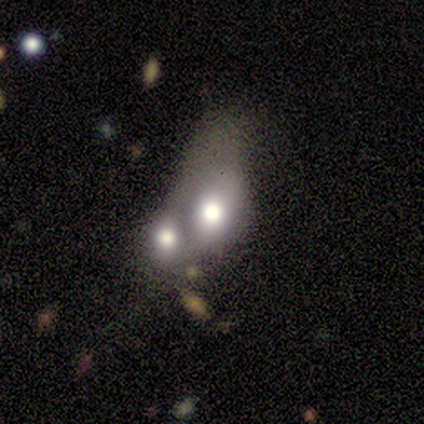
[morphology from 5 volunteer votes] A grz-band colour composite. It shows a featured or disk galaxy (60%) with no bar (100%), no spiral arms (100%) and a dominant central bulge (33%, tied with large and moderate). Merging: merger (80%).